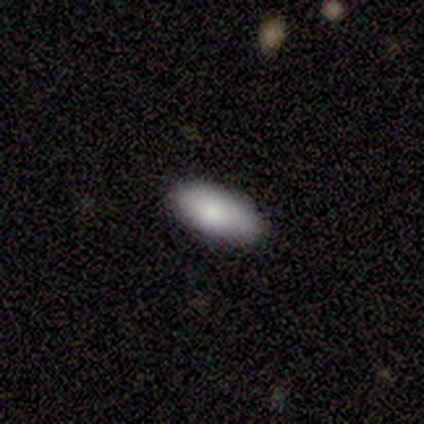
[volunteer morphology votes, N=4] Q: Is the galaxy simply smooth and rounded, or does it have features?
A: smooth — 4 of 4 (100%).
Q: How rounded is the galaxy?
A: in between — 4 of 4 (100%).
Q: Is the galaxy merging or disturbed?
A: none — 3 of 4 (75%).